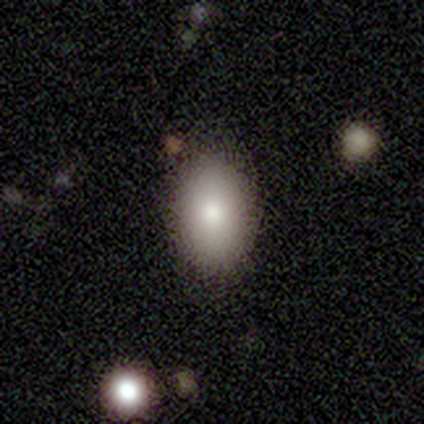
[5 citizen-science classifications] smooth 80%, featured or disk 20%, star or artifact 0%. Down the decision tree: how rounded — in between (100%); merging — none (100%).